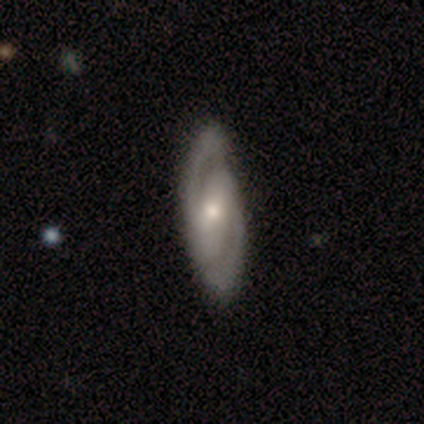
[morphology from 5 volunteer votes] Volunteers were most divided on "spiral winding" (2-way tie): tight: 50%, medium: 50%, loose: 0%. More confident: edge-on disk — no (100%); spiral arms — yes (100%); spiral arm count — 2 (100%); smooth or featured — featured or disk (80%); bar — strong (75%); merging — none (60%); bulge size — small (50%).